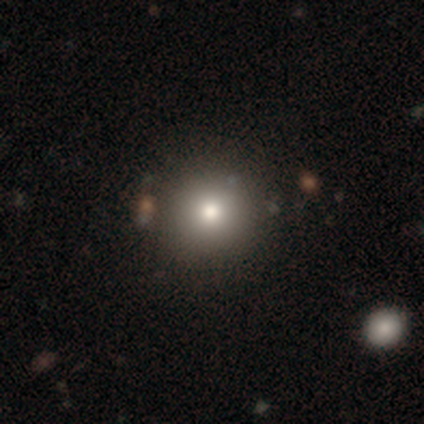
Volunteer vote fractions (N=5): smooth_or_featured: smooth (p=0.80) [alt: featured or disk p=0.20]
how_rounded: round (p=1.00)
merging: none (p=1.00)